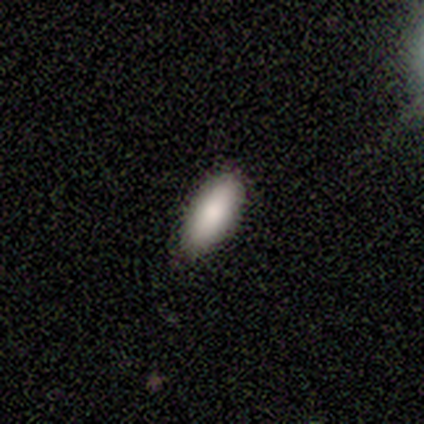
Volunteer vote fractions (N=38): Smooth or featured?
  - smooth: 76% *
  - featured or disk: 16%
  - star or artifact: 8%
How rounded?
  - in between: 83% *
  - cigar-shaped: 14%
  - round: 3%
Merging?
  - none: 71% *
  - minor disturbance: 23%
  - major disturbance: 6%
  - merger: 0%